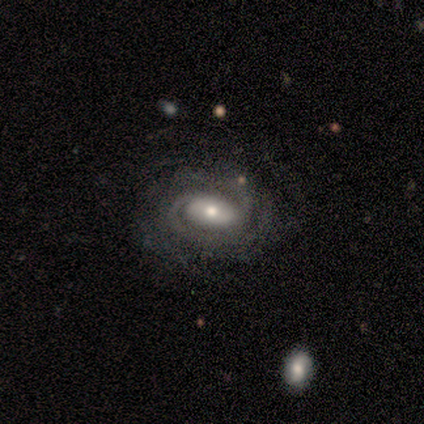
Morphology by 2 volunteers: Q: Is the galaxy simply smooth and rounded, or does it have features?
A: featured or disk — 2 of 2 (100%).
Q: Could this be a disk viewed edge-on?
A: no — 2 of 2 (100%).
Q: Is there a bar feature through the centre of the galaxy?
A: strong — 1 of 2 (50%, tied with no).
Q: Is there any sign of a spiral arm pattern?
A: yes — 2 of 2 (100%).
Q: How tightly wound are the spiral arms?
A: medium — 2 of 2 (100%).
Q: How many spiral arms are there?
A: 2 — 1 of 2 (50%, tied with can't tell).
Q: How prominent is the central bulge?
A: moderate — 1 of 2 (50%, tied with small).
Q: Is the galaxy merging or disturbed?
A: none — 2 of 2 (100%).